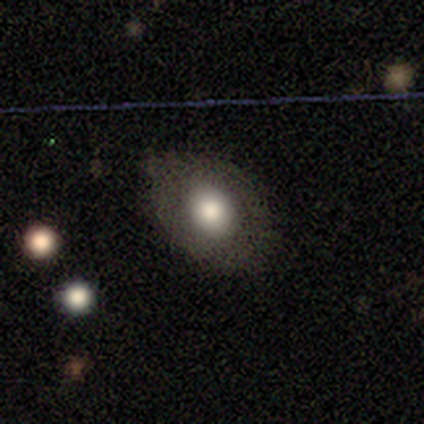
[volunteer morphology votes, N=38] This is possibly a smooth galaxy (58%). How rounded: likely in between (68%). Merging: likely none (68%).